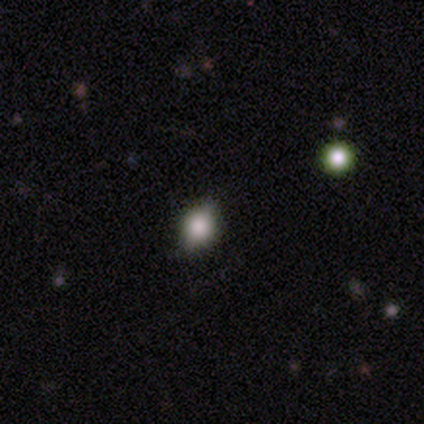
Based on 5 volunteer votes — Volunteers were most divided on "how rounded": round: 60%, in between: 40%, cigar-shaped: 0%. More confident: smooth or featured — smooth (100%); merging — none (80%).